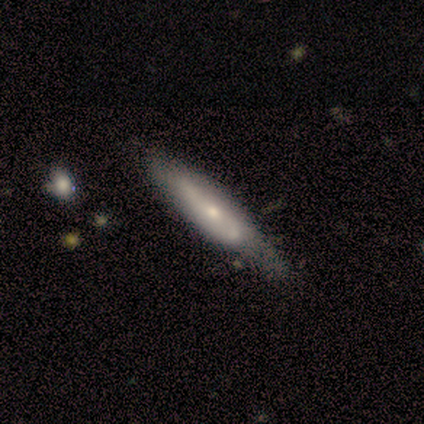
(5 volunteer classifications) smooth-or-featured: featured or disk: 60% | smooth: 40% | star or artifact: 0%
  disk-edge-on: no: 67% | yes: 33%
    bar: no: 100% | strong: 0% | weak: 0%
    has-spiral-arms: no: 100% | yes: 0%
    bulge-size: small: 100% | dominant: 0% | large: 0% | moderate: 0% | none: 0%
  merging: minor disturbance: 60% | none: 40% | major disturbance: 0% | merger: 0%